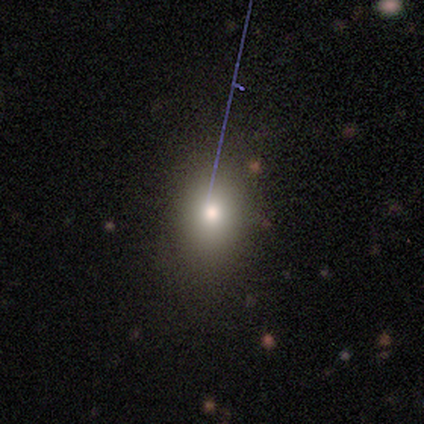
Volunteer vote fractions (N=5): Overall: smooth (80%). How rounded: in between (75%). Merging: none (100%).